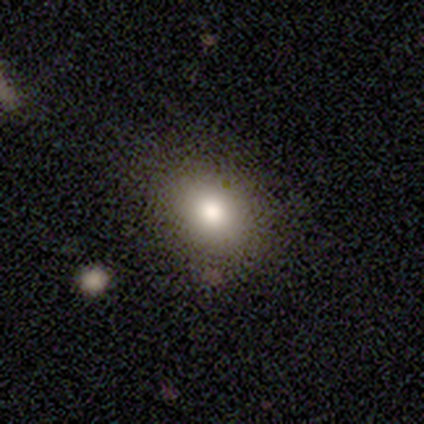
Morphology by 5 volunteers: A smooth galaxy with no disk features (80%) that is round (50%, tied with in between). Merging: none (60%).